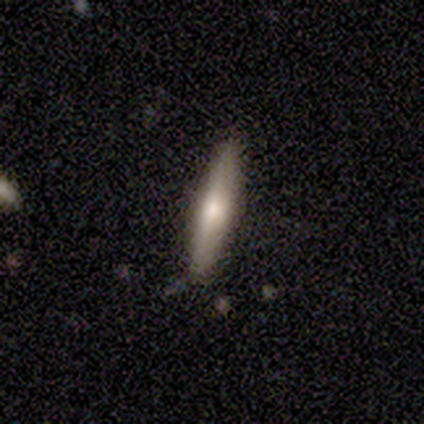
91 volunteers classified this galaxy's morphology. Volunteers were most divided on "smooth or featured": featured or disk: 57%, smooth: 40%, star or artifact: 3%. More confident: edge-on disk — yes (96%); merging — none (89%); edge-on bulge — rounded (68%).